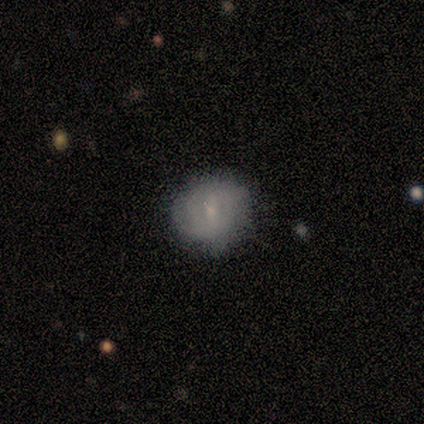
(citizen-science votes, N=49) smooth-or-featured: smooth: 51% | featured or disk: 47% | star or artifact: 2%
  how-rounded: round: 88% | in between: 12% | cigar-shaped: 0%
  merging: none: 77% | minor disturbance: 15% | major disturbance: 6% | merger: 2%